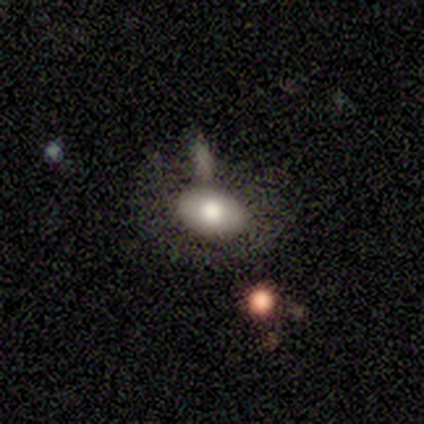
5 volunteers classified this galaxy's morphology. This appears to be a smooth galaxy with no disk features (60%) that is in between round and cigar-shaped (100%). Merging: none (80%).